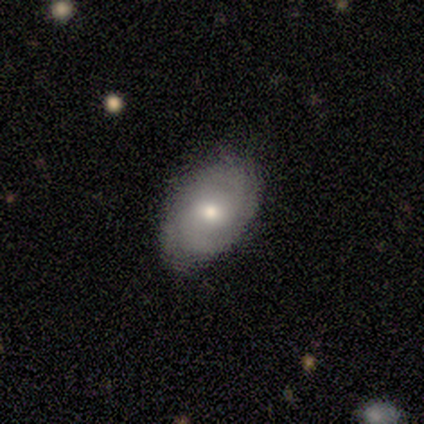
This is likely a featured or disk galaxy (60%). It is clearly not viewed edge-on (100%). Bar: clearly no (100%). Spiral arm pattern: clearly yes (100%). Spiral arm count: likely 2 (67%). Spiral winding: likely medium (67%). Central bulge: likely small (67%). Merging: clearly none (100%).